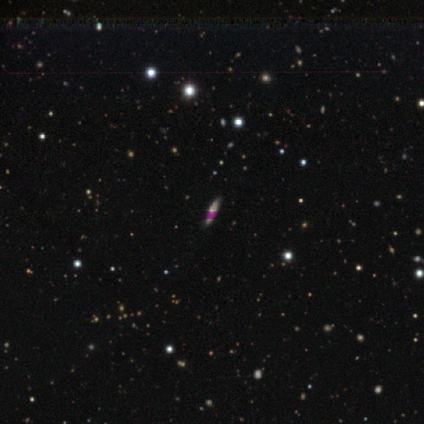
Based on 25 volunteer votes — Smooth or featured: star or artifact — 60% (featured or disk — 24%)